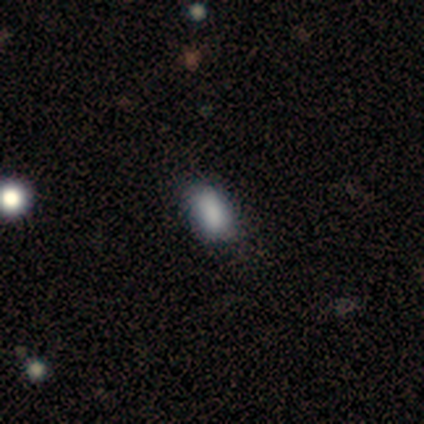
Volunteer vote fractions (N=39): Q: Smooth or featured?
A: smooth (85%); runner-up: star or artifact (10%)
Q: How rounded?
A: in between (76%); runner-up: round (15%)
Q: Merging?
A: none (71%); runner-up: minor disturbance (23%)